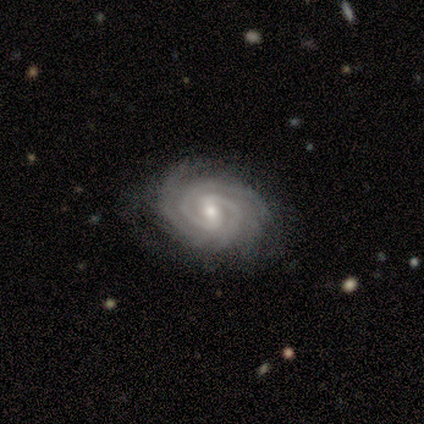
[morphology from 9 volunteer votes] smooth-or-featured: featured or disk: 100% | smooth: 0% | star or artifact: 0%
  disk-edge-on: no: 100% | yes: 0%
    bar: weak: 89% | strong: 11% | no: 0%
    has-spiral-arms: yes: 100% | no: 0%
      spiral-winding: tight: 100% | medium: 0% | loose: 0%
      spiral-arm-count: 2: 56% | 3: 22% | 4: 22% | 1: 0% | more than 4: 0% | can't tell: 0%
    bulge-size: moderate: 56% | small: 33% | large: 11% | dominant: 0% | none: 0%
  merging: none: 78% | minor disturbance: 11% | major disturbance: 11% | merger: 0%